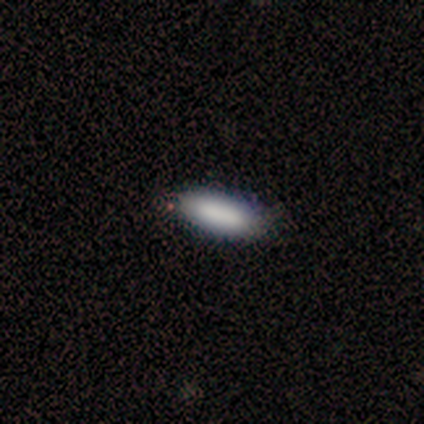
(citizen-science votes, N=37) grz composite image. It shows a smooth galaxy with no disk features (78%) that is in between round and cigar-shaped (62%). Merging: none (88%).